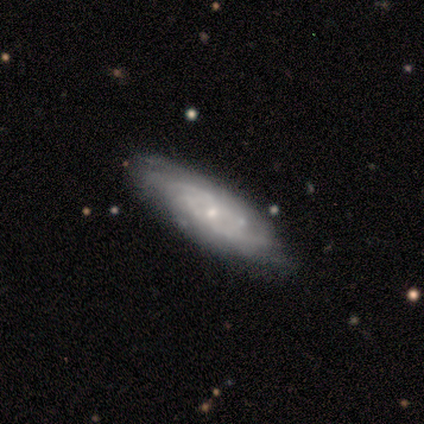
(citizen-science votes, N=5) Morphology: type=featured or disk (80%); edge-on=no (75%); bar=no (100%); spiral arms=yes (100%); winding=medium (67%); arm count=3 (33%, tied with 4 and can't tell); bulge=small (67%); merging=none (60%).